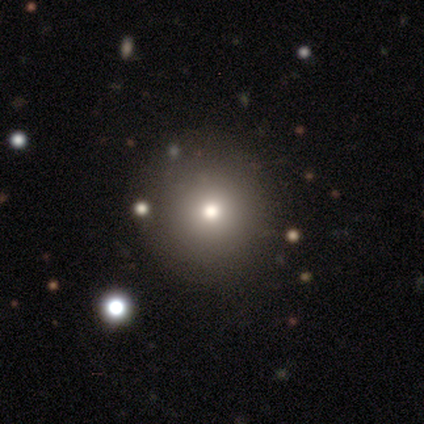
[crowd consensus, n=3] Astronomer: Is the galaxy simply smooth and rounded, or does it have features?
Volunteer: star or artifact — 67%.